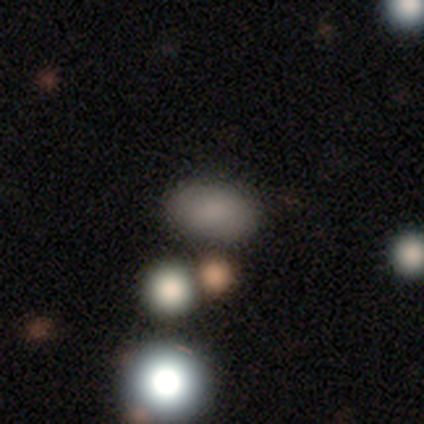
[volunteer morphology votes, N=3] This is likely a smooth galaxy (67%). How rounded: clearly in between (100%). Merging: clearly none (100%).